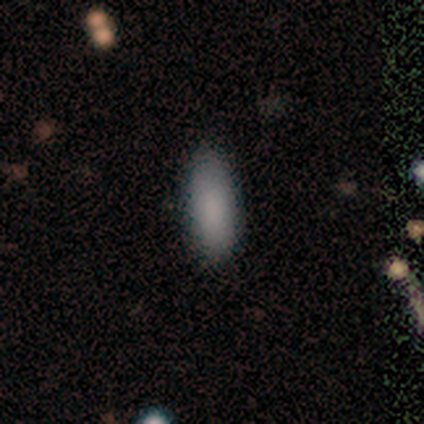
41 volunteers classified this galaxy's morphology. type=smooth (88%); roundness=in between (83%); merging=none (87%).